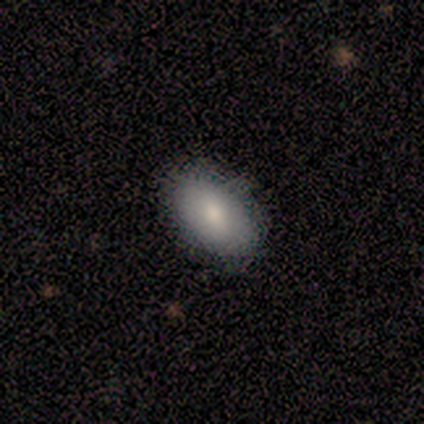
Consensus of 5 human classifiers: Smooth or featured?
  - smooth: 100% *
  - featured or disk: 0%
  - star or artifact: 0%
How rounded?
  - in between: 100% *
  - round: 0%
  - cigar-shaped: 0%
Merging?
  - none: 80% *
  - minor disturbance: 20%
  - major disturbance: 0%
  - merger: 0%